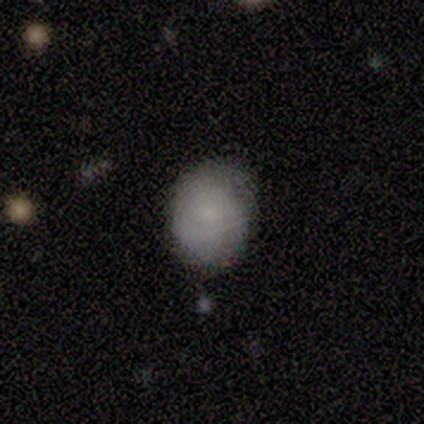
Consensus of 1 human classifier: Smooth or featured: smooth — 100%
How rounded: round — 100%
Merging: none — 100%